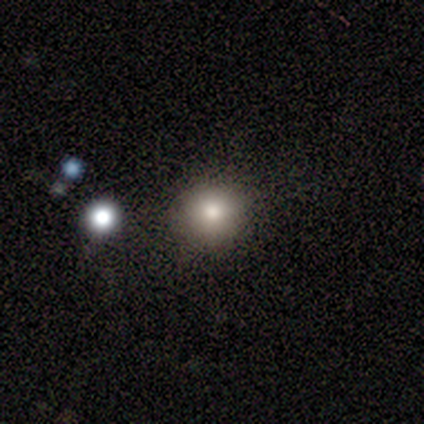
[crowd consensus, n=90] Smooth or featured? smooth (72%)
How rounded? round (92%)
Merging? none (88%)